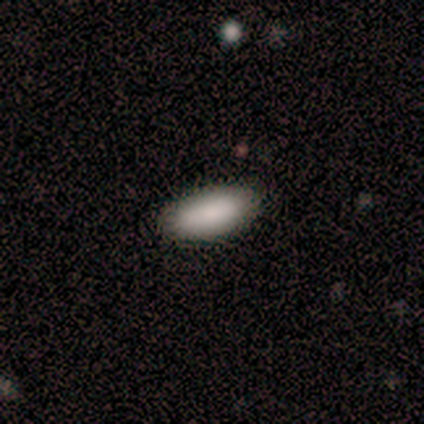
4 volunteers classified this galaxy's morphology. A smooth galaxy with no disk features (100%) that is in between round and cigar-shaped (100%).

Vote fractions:
- Smooth or featured? smooth: 100% / featured or disk: 0% / star or artifact: 0%
- How rounded? in between: 100% / round: 0% / cigar-shaped: 0%
- Merging? none: 100% / minor disturbance: 0% / major disturbance: 0% / merger: 0%